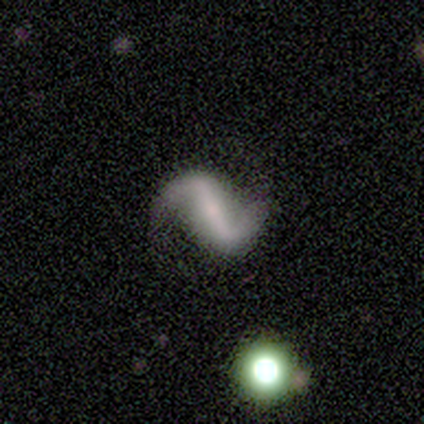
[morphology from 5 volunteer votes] Smooth or featured? 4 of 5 (80%) said featured or disk. Edge-on disk? 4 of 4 (100%) said no. Bar? 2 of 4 (50%, tied with weak) said strong. Spiral arms? 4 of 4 (100%) said yes. Spiral winding? 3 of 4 (75%) said loose. Spiral arm count? 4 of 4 (100%) said 2. Bulge size? 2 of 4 (50%) said small. Merging? 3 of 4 (75%) said none.